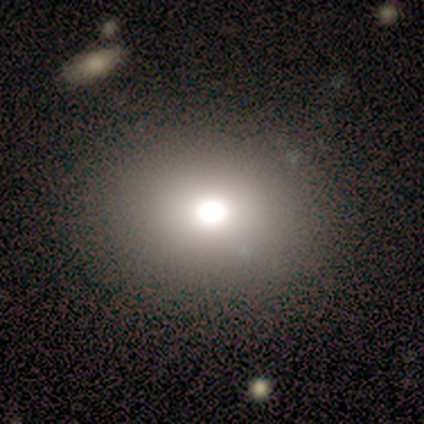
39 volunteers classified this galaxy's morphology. Volunteers were most divided on "how rounded": round: 58%, in between: 42%, cigar-shaped: 0%. More confident: merging — none (78%); smooth or featured — smooth (67%).